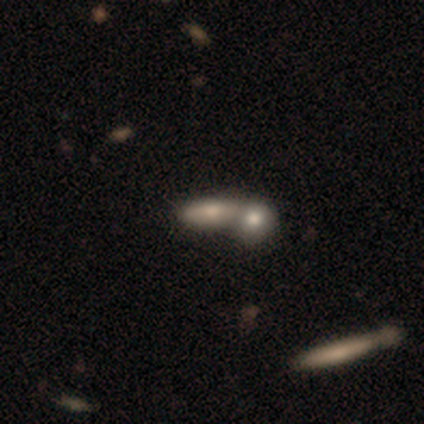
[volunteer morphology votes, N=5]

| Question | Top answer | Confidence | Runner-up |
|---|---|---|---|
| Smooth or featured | smooth | 40% | tied: featured or disk (40%) |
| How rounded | in between | 50% | tied: cigar-shaped (50%) |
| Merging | none | 50% | tied: merger (50%) |